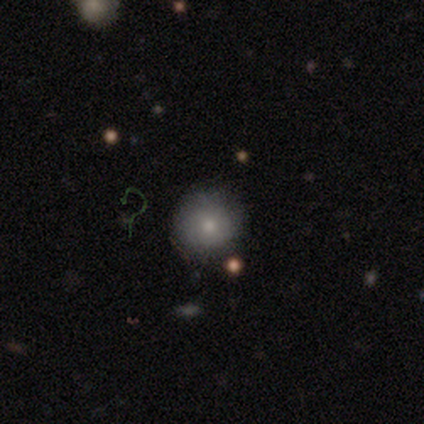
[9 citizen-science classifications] smooth 67%, featured or disk 33%, star or artifact 0%. Down the decision tree: how rounded — round (100%); merging — none (89%).